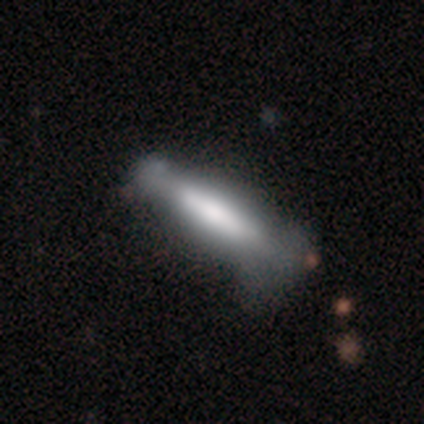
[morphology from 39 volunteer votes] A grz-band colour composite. It shows a featured or disk galaxy (54%) viewed edge-on (76%) with a boxy central bulge (44%). Merging: none (36%).